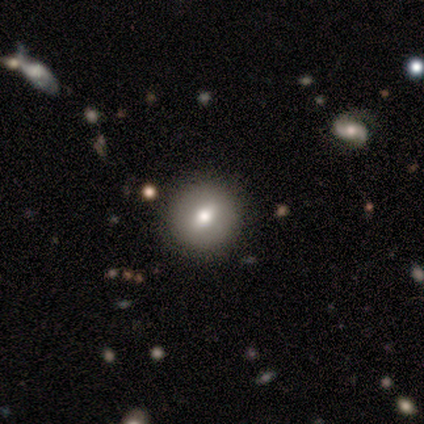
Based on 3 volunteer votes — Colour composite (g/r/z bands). It shows a star or artifact, not a galaxy (67%).